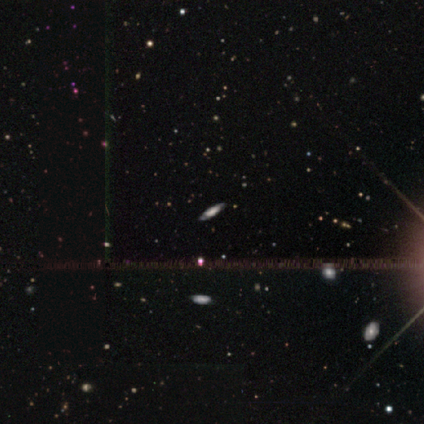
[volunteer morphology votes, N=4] Smooth or featured? 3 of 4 (75%) said smooth. How rounded? 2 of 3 (67%) said in between. Merging? 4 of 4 (100%) said none.